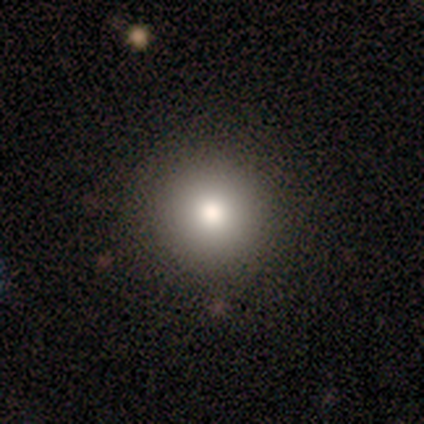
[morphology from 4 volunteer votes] smooth_or_featured: smooth (p=1.00)
how_rounded: round (p=1.00)
merging: none (p=0.75) [alt: minor disturbance p=0.25]